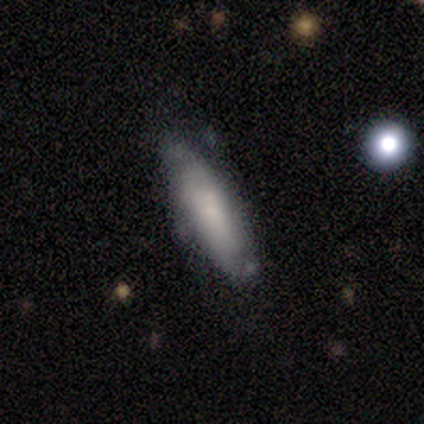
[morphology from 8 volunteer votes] Q: Smooth or featured?
A: smooth (62%); runner-up: featured or disk (38%)
Q: How rounded?
A: in between (80%); runner-up: cigar-shaped (20%)
Q: Merging?
A: none (62%); runner-up: minor disturbance (38%)